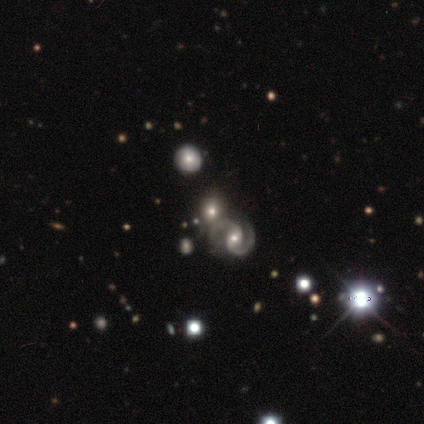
Smooth or featured?
  - featured or disk: 49% *
  - star or artifact: 31%
  - smooth: 21%
Edge-on disk?
  - no: 100% *
  - yes: 0%
Bar?
  - weak: 58% *
  - strong: 21%
  - no: 21%
Spiral arms?
  - yes: 95% *
  - no: 5%
Spiral winding?
  - medium: 78% *
  - tight: 11%
  - loose: 11%
Spiral arm count?
  - 2: 100% *
  - 1: 0%
  - 3: 0%
  - 4: 0%
  - more than 4: 0%
  - can't tell: 0%
Bulge size?
  - moderate: 68% *
  - small: 16%
  - none: 11%
  - large: 5%
  - dominant: 0%
Merging?
  - none: 56% *
  - merger: 30%
  - minor disturbance: 11%
  - major disturbance: 4%